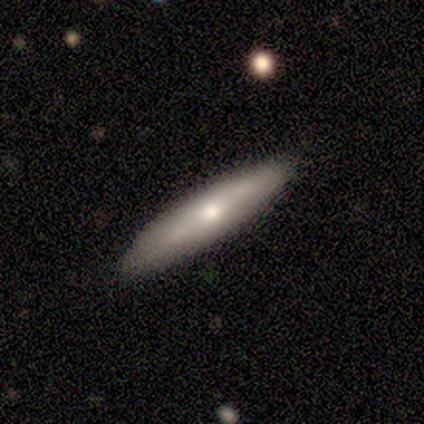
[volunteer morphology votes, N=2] type=smooth (100%); roundness=cigar-shaped (100%); merging=none (50%, tied with merger).